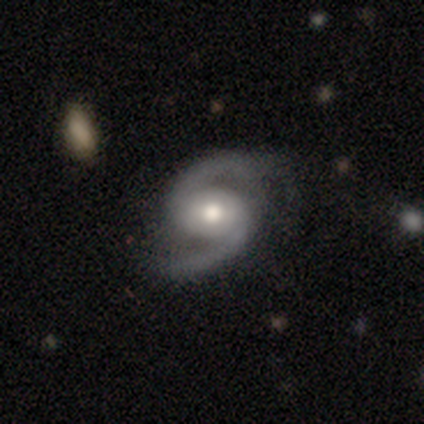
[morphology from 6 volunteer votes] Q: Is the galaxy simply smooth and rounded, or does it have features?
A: featured or disk — 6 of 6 (100%).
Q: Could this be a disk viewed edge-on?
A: no — 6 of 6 (100%).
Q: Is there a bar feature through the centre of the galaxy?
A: no — 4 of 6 (67%).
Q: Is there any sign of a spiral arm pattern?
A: yes — 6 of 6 (100%).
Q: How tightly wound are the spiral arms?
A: medium — 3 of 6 (50%, tied with loose).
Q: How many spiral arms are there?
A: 2 — 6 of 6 (100%).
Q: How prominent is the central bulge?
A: moderate — 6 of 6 (100%).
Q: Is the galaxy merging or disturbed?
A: none — 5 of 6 (83%).